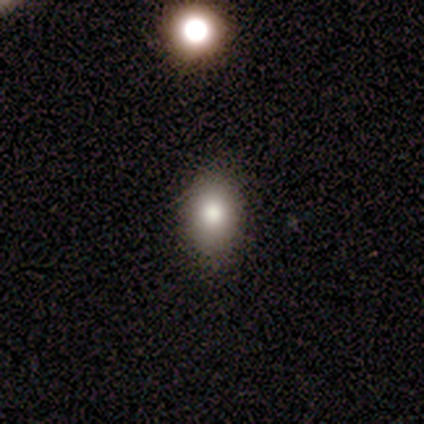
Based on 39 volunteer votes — Smooth or featured?
  - smooth: 79% *
  - star or artifact: 15%
  - featured or disk: 5%
How rounded?
  - in between: 81% *
  - round: 19%
  - cigar-shaped: 0%
Merging?
  - none: 88% *
  - minor disturbance: 12%
  - major disturbance: 0%
  - merger: 0%